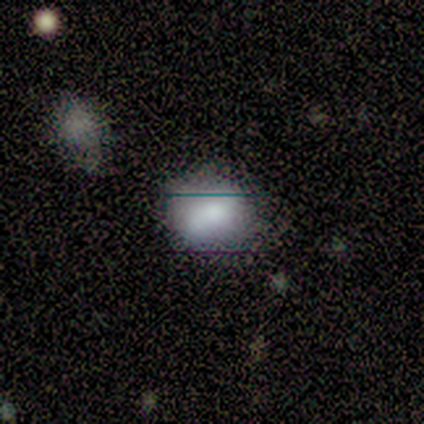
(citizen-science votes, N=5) A smooth galaxy with no disk features (60%) that is in between round and cigar-shaped (67%).

Vote fractions:
- Smooth or featured? smooth: 60% / featured or disk: 40% / star or artifact: 0%
- How rounded? in between: 67% / round: 33% / cigar-shaped: 0%
- Merging? minor disturbance: 80% / none: 20% / major disturbance: 0% / merger: 0%